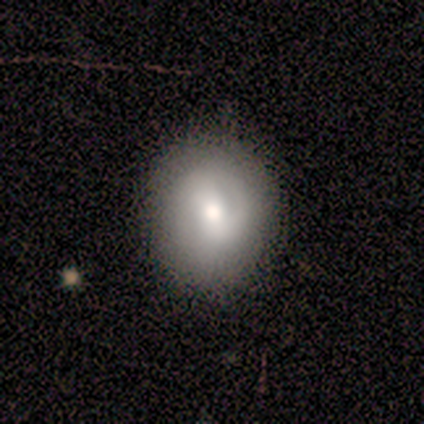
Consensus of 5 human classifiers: This appears to be a smooth galaxy with no disk features (40%, tied with featured or disk) that is round (50%, tied with in between). Merging: none (100%).